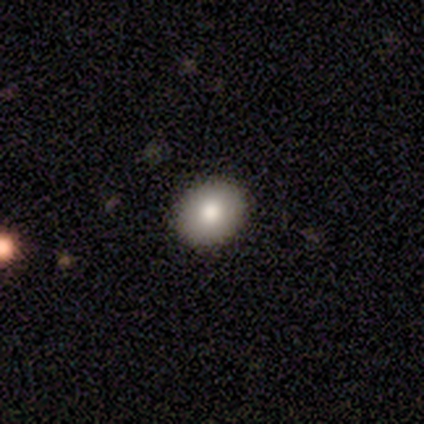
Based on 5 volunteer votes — Smooth or featured? 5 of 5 (100%) said smooth. How rounded? 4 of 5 (80%) said round. Merging? 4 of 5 (80%) said none.